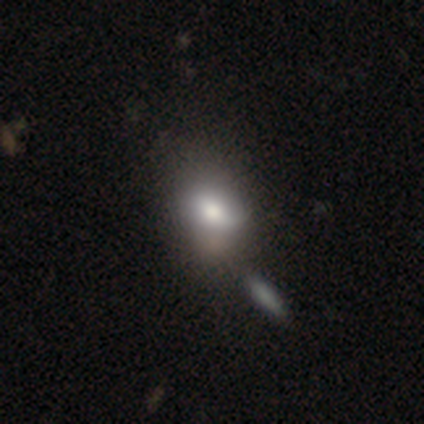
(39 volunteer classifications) smooth-or-featured: smooth: 69% | featured or disk: 23% | star or artifact: 8%
  how-rounded: in between: 70% | round: 30% | cigar-shaped: 0%
  merging: merger: 22% | none: 19% | major disturbance: 19% | minor disturbance: 17%